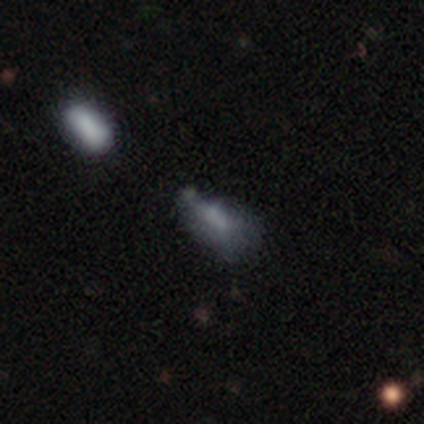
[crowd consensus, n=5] Overall: featured or disk (60%; smooth 20%). Edge-on disk: no (100%). Bar: no (67%; weak 33%). Spiral arms: no (100%). Bulge size: none (67%; small 33%). Merging: none (50%; minor disturbance 25%).